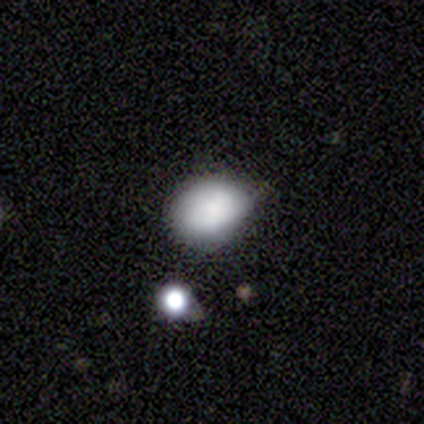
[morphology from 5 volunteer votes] This appears to be a smooth galaxy with no disk features (80%) that is round (50%, tied with in between). Merging: none (50%).